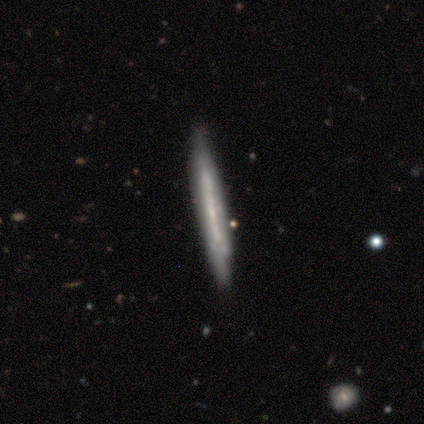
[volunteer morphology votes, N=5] This appears to be a featured or disk galaxy (60%) viewed edge-on (67%) with a boxy central bulge (50%, tied with none). Merging: none (75%).